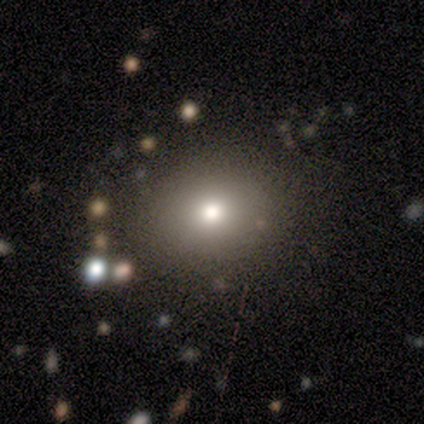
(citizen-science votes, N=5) Overall: smooth (80%). How rounded: round (75%). Merging: none (60%; minor disturbance 20%).